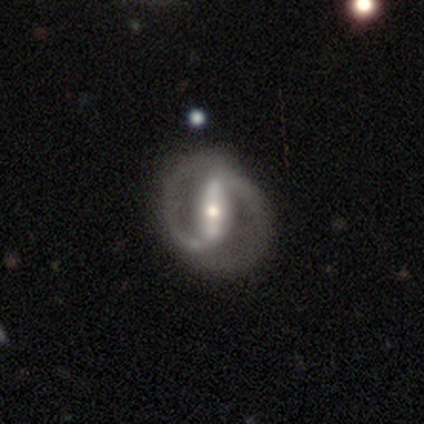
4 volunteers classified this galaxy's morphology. This appears to be a featured or disk galaxy (75%) with a strong bar (50%, tied with weak), 2 (100%) medium (100%) spiral arms (100%) and a moderate central bulge (50%, tied with small). Merging: none (50%, tied with major disturbance).